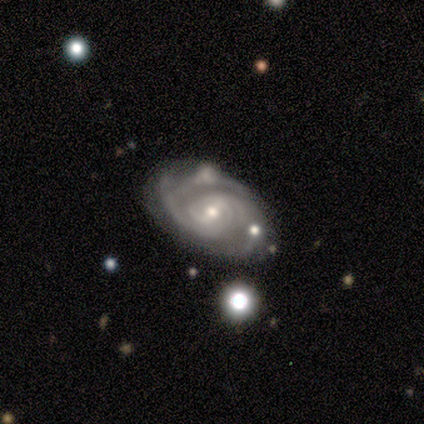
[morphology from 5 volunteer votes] featured or disk 100%, smooth 0%, star or artifact 0%. Down the decision tree: edge-on disk — no (100%); bar — weak (60%); spiral arms — yes (100%); spiral arm count — 2 (60%); spiral winding — tight (80%); bulge size — small (80%); merging — none (60%).